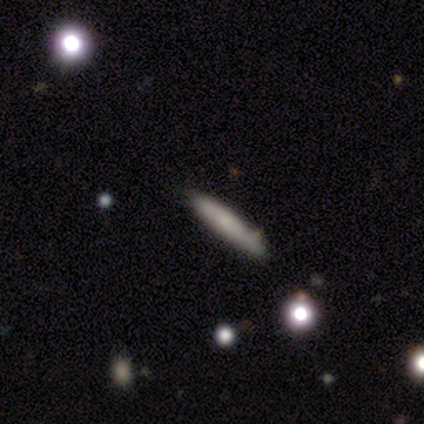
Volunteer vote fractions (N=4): Smooth or featured: smooth — 75% (featured or disk — 25%)
How rounded: cigar-shaped — 67% (round — 33%)
Merging: merger — 50% (none — 25%)